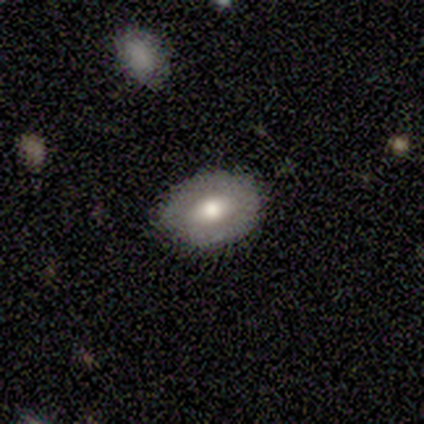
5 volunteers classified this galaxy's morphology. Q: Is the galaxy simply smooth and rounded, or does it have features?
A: featured or disk — 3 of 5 (60%).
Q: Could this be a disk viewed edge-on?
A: no — 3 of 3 (100%).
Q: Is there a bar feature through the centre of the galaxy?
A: no — 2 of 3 (67%).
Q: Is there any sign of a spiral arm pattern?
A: no — 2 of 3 (67%).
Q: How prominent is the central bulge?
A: large — 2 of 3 (67%).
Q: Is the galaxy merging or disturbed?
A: none — 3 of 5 (60%).